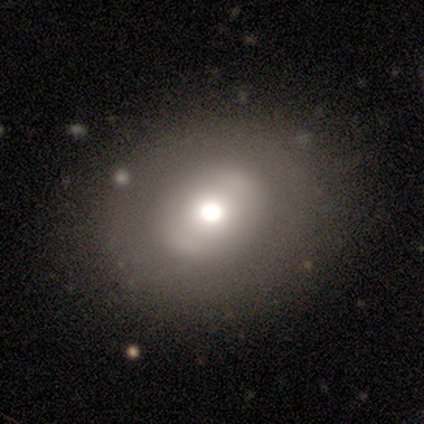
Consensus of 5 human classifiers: Smooth or featured?
  - featured or disk: 60% *
  - smooth: 40%
  - star or artifact: 0%
Edge-on disk?
  - no: 100% *
  - yes: 0%
Bar?
  - no: 100% *
  - strong: 0%
  - weak: 0%
Spiral arms?
  - no: 100% *
  - yes: 0%
Bulge size?
  - moderate: 67% *
  - small: 33%
  - dominant: 0%
  - large: 0%
  - none: 0%
Merging?
  - none: 80% *
  - major disturbance: 20%
  - minor disturbance: 0%
  - merger: 0%